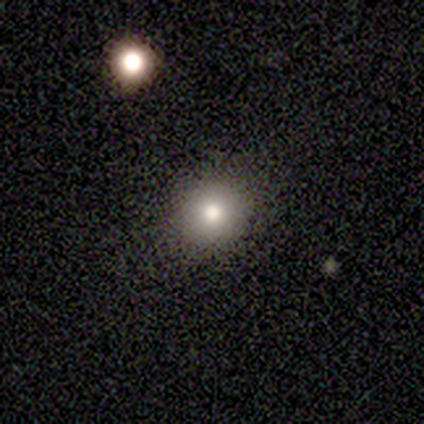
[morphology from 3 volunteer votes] smooth-or-featured: smooth: 67% | featured or disk: 33% | star or artifact: 0%
  how-rounded: round: 100% | in between: 0% | cigar-shaped: 0%
  merging: none: 67% | minor disturbance: 33% | major disturbance: 0% | merger: 0%